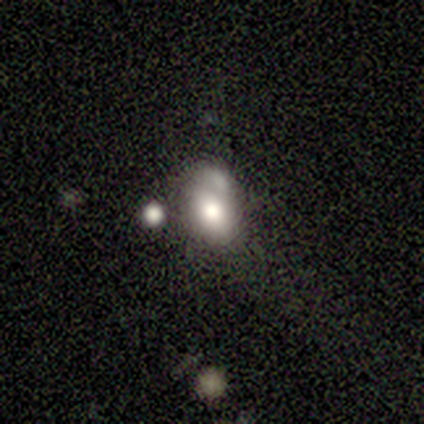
Overall: smooth (60%; featured or disk 40%). How rounded: in between (67%; round 33%). Merging: minor disturbance (40%, tied with merger).